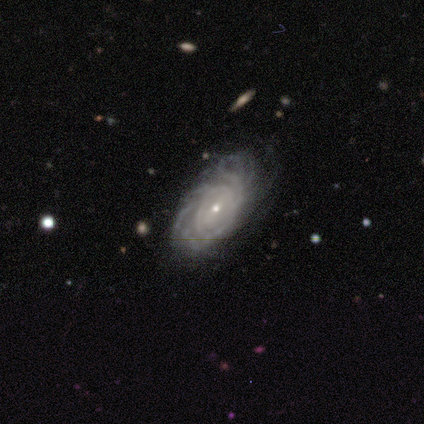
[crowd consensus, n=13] smooth-or-featured: featured or disk: 92% | star or artifact: 8% | smooth: 0%
  disk-edge-on: no: 100% | yes: 0%
    bar: weak: 42% | no: 33% | strong: 25%
    has-spiral-arms: yes: 100% | no: 0%
      spiral-winding: tight: 75% | medium: 17% | loose: 8%
      spiral-arm-count: can't tell: 42% | 3: 25% | 4: 25% | more than 4: 8% | 1: 0% | 2: 0%
    bulge-size: small: 75% | moderate: 25% | dominant: 0% | large: 0% | none: 0%
  merging: none: 75% | minor disturbance: 17% | major disturbance: 8% | merger: 0%